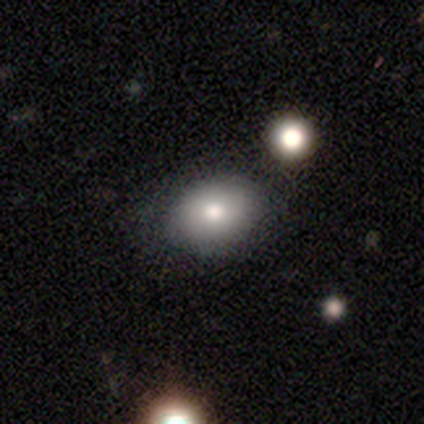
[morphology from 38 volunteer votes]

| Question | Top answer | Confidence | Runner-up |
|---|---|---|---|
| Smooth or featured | smooth | 71% | featured or disk (18%) |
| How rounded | in between | 59% | round (41%) |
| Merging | none | 74% | minor disturbance (21%) |